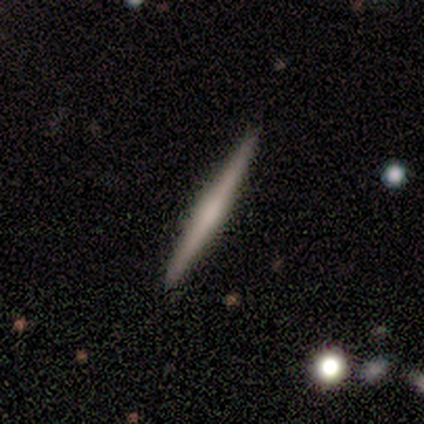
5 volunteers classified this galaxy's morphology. type=featured or disk (80%); edge-on=yes (100%); edge-on bulge=none (50%, tied with rounded); merging=none (100%).